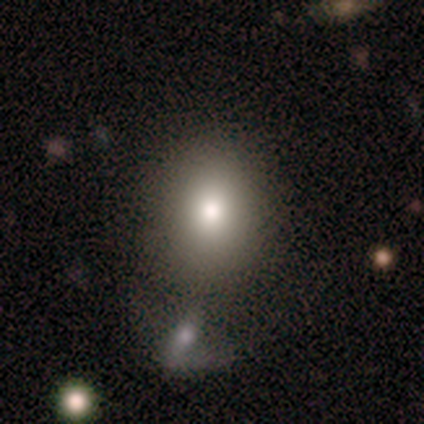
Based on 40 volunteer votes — This is likely a smooth galaxy (75%). How rounded: likely round (63%). Merging: possibly none (54%).